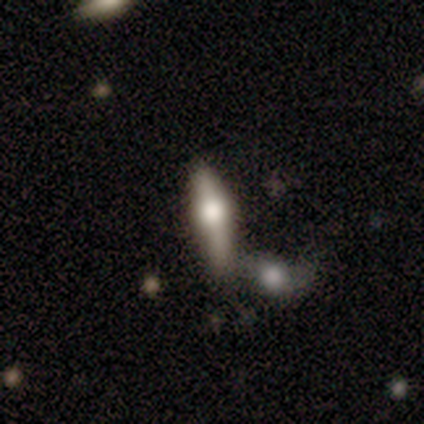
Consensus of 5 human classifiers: smooth 60%, featured or disk 40%, star or artifact 0%. Down the decision tree: how rounded — round (33%, tied with in between and cigar-shaped); merging — none (40%, tied with merger).